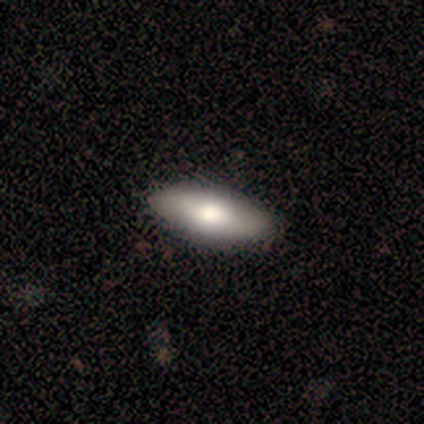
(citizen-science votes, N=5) Morphology: type=smooth (100%); roundness=in between (80%); merging=none (100%).